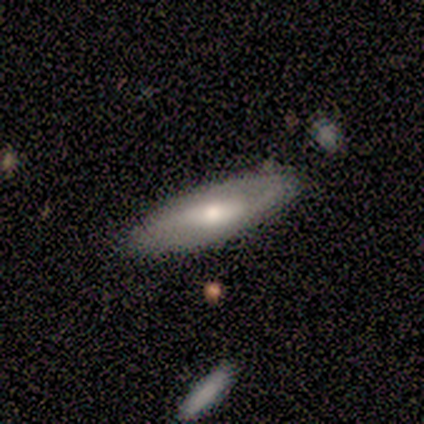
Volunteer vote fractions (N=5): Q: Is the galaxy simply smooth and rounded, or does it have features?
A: featured or disk — 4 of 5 (80%).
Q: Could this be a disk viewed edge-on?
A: no — 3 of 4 (75%).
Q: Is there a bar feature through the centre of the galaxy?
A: weak — 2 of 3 (67%).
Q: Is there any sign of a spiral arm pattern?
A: yes — 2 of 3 (67%).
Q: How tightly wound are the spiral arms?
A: medium — 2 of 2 (100%).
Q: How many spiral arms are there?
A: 2 — 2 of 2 (100%).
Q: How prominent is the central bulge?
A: large — 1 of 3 (33%, tied with moderate and small).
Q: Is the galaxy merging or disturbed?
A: minor disturbance — 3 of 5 (60%).